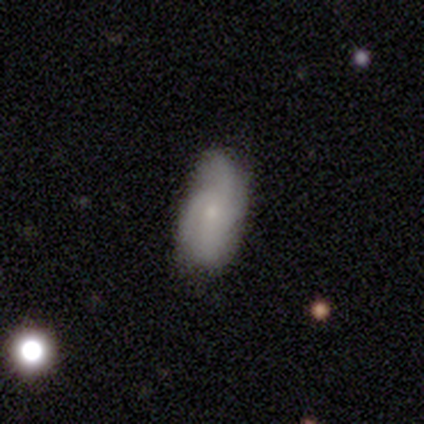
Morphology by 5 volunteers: smooth_or_featured: featured or disk (p=0.60) [alt: smooth p=0.40]
disk_edge_on: no (p=1.00)
bar: no (p=1.00)
has_spiral_arms: yes (p=1.00)
spiral_winding: tight (p=0.33) [tied with: medium p=0.33, loose p=0.33]
spiral_arm_count: 3 (p=0.67) [alt: 4 p=0.33]
bulge_size: small (p=0.67) [alt: moderate p=0.33]
merging: none (p=0.60) [alt: minor disturbance p=0.40]